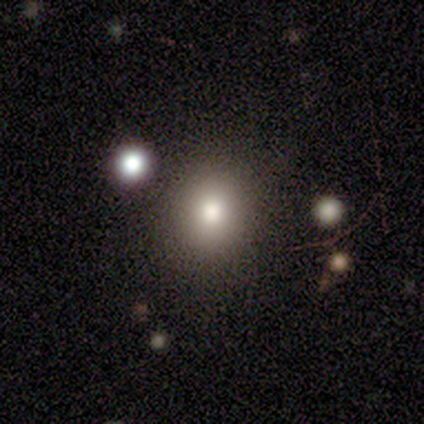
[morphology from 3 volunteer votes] This is clearly a smooth galaxy (100%). How rounded: clearly round (100%). Merging: likely none (67%).